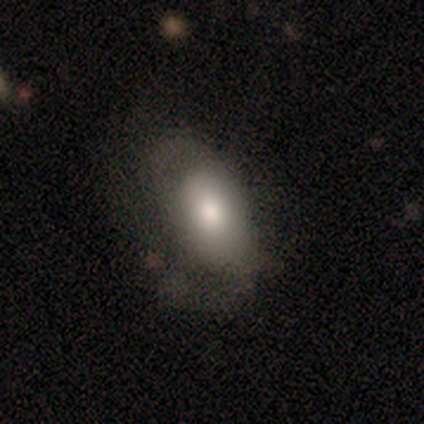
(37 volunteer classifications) This appears to be a smooth galaxy with no disk features (70%) that is in between round and cigar-shaped (88%). Merging: none (59%).